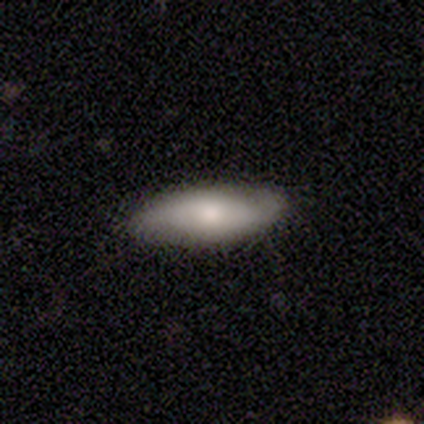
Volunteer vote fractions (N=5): smooth-or-featured: smooth: 80% | featured or disk: 20% | star or artifact: 0%
  how-rounded: in between: 75% | cigar-shaped: 25% | round: 0%
  merging: none: 100% | minor disturbance: 0% | major disturbance: 0% | merger: 0%